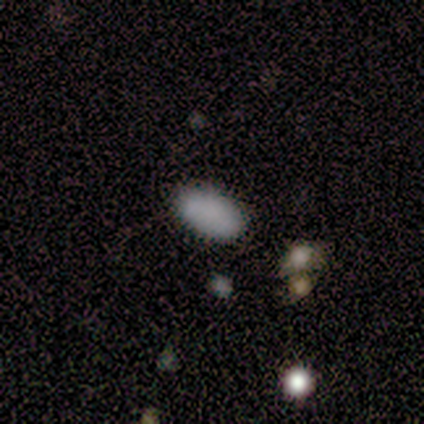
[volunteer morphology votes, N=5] Volunteers were most divided on "smooth or featured": smooth: 60%, star or artifact: 40%, featured or disk: 0%. More confident: how rounded — in between (100%); merging — none (67%).